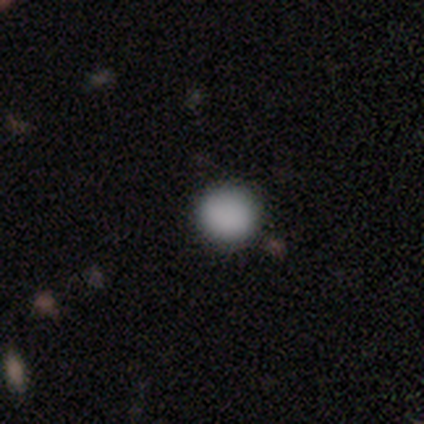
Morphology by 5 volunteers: Volunteers were most divided on "how rounded": round: 80%, in between: 20%, cigar-shaped: 0%. More confident: smooth or featured — smooth (100%); merging — none (80%).